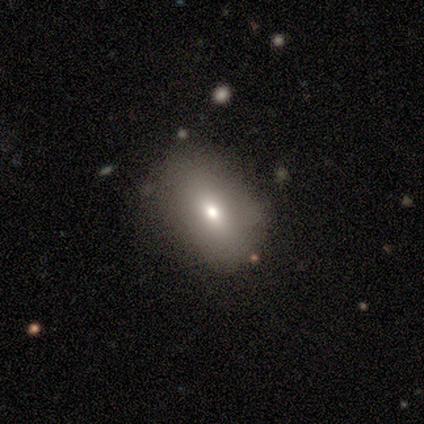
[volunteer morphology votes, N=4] Q: Smooth or featured?
A: smooth (100%)
Q: How rounded?
A: in between (75%); runner-up: round (25%)
Q: Merging?
A: none (100%)